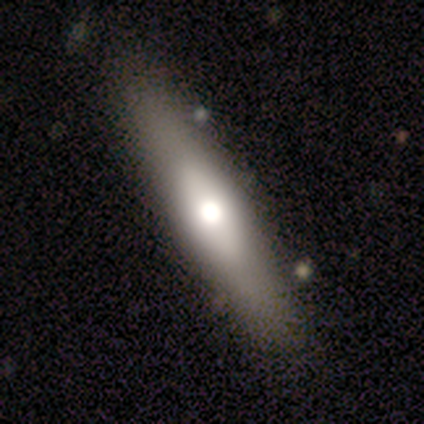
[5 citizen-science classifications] Q: Smooth or featured?
A: featured or disk (80%); runner-up: smooth (20%)
Q: Edge-on disk?
A: yes (50%); tied with: no (50%)
Q: Edge-on bulge?
A: rounded (100%)
Q: Merging?
A: none (80%); runner-up: minor disturbance (20%)